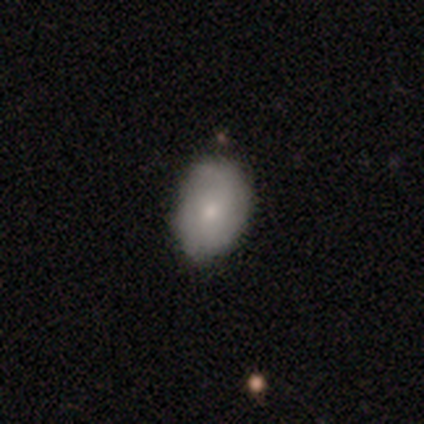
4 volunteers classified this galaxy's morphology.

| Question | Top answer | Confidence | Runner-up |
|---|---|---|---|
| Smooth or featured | smooth | 75% | featured or disk (25%) |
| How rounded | in between | 67% | round (33%) |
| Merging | minor disturbance | 75% | none (25%) |